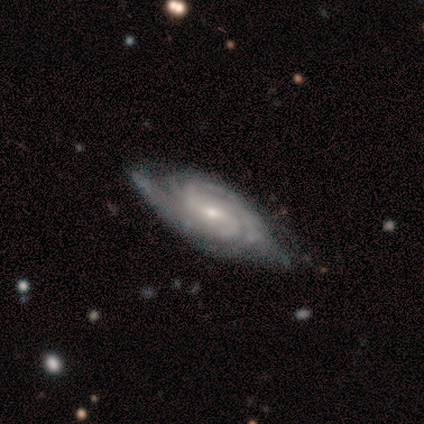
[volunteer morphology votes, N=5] Overall: featured or disk (100%). Edge-on disk: no (100%). Bar: strong (40%, tied with weak). Spiral arms: yes (100%). Spiral arm count: 2 (40%, tied with more than 4). Spiral winding: medium (60%; tight 40%). Bulge size: small (60%; moderate 40%). Merging: none (60%; minor disturbance 40%).